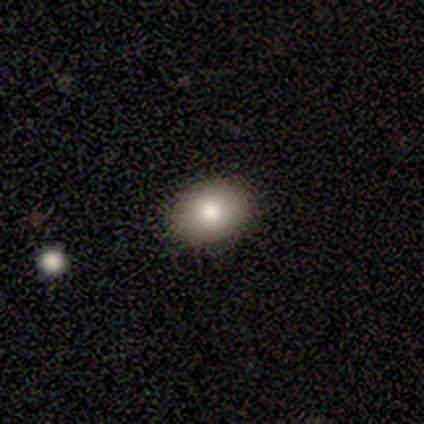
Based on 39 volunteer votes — Q: Smooth or featured?
A: smooth (77%); runner-up: featured or disk (15%)
Q: How rounded?
A: in between (77%); runner-up: round (23%)
Q: Merging?
A: none (92%); runner-up: major disturbance (6%)